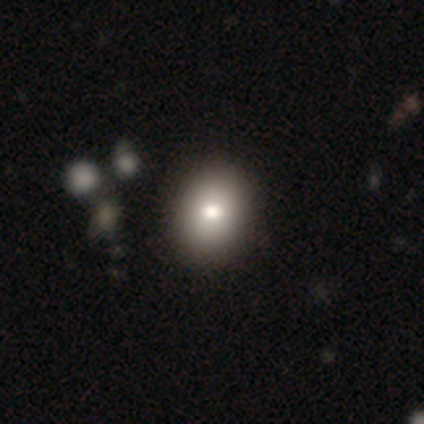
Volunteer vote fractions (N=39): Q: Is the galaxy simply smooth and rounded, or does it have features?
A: smooth — 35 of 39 (90%).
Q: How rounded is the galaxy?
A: round — 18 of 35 (51%).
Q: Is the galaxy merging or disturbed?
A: none — 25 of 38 (66%).